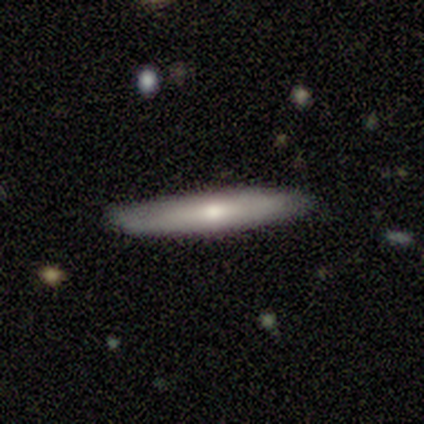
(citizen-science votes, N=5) smooth-or-featured: smooth: 60% | featured or disk: 20% | star or artifact: 20%
  how-rounded: cigar-shaped: 100% | round: 0% | in between: 0%
  merging: none: 100% | minor disturbance: 0% | major disturbance: 0% | merger: 0%